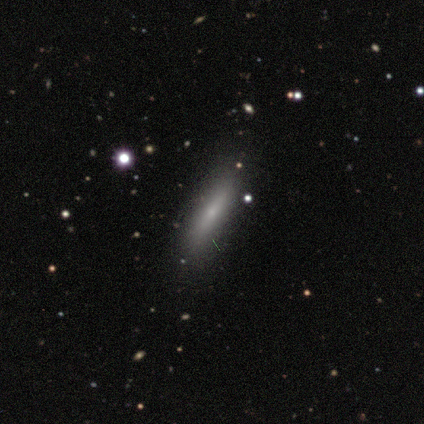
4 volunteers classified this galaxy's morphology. Volunteers were most divided on "smooth or featured" (2-way tie): smooth: 50%, featured or disk: 50%, star or artifact: 0%; "how rounded" (2-way tie): in between: 50%, cigar-shaped: 50%, round: 0%. More confident: merging — none (100%).